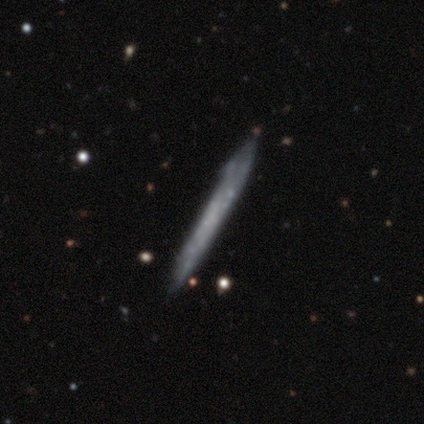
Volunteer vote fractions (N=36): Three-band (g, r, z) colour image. It shows a featured or disk galaxy (53%) viewed edge-on (84%) with no central bulge (94%). Merging: none (83%).